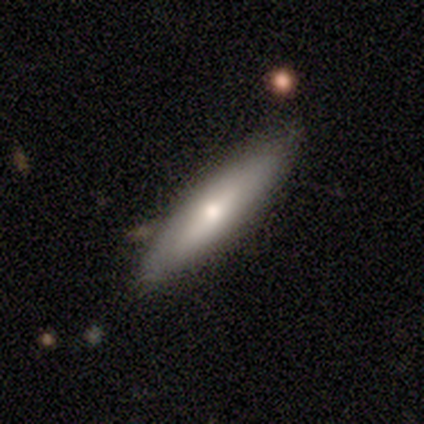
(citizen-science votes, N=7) Morphology: type=featured or disk (57%); edge-on=yes (75%); edge-on bulge=rounded (100%); merging=none (86%).